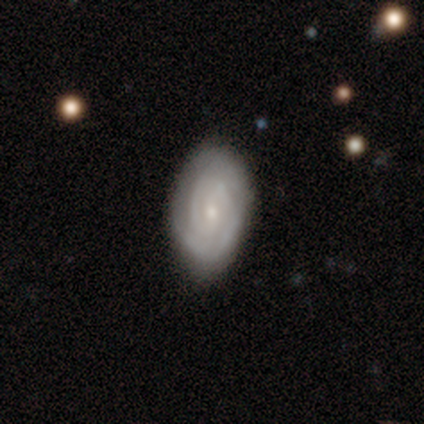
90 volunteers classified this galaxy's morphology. Smooth or featured? 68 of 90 (76%) said featured or disk. Edge-on disk? 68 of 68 (100%) said no. Bar? 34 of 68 (50%) said no. Spiral arms? 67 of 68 (99%) said yes. Spiral winding? 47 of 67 (70%) said tight. Spiral arm count? 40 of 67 (60%) said 2. Bulge size? 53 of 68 (78%) said small. Merging? 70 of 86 (81%) said none.